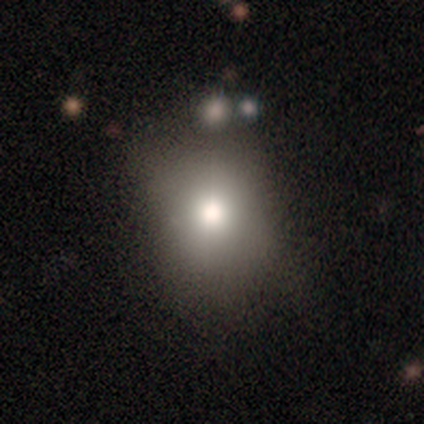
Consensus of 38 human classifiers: smooth_or_featured: smooth (p=0.68) [alt: star or artifact p=0.21]
how_rounded: round (p=0.65) [alt: in between p=0.35]
merging: none (p=0.53) [alt: minor disturbance p=0.33]